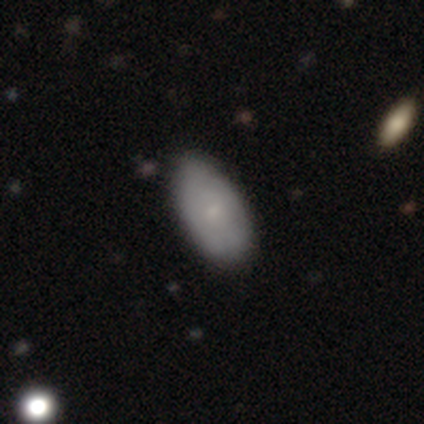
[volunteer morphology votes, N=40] Smooth or featured? 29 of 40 (72%) said smooth. How rounded? 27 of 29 (93%) said in between. Merging? 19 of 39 (49%) said none.